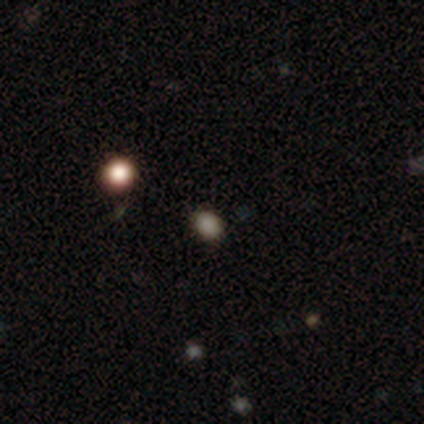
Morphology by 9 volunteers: Volunteers were most divided on "how rounded": in between: 71%, round: 29%, cigar-shaped: 0%. More confident: merging — none (100%); smooth or featured — smooth (78%).